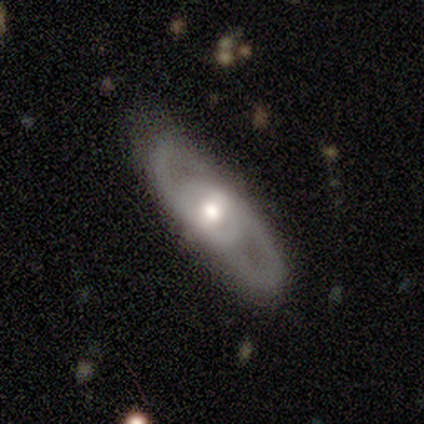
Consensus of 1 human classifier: Smooth or featured? featured or disk (100%)
Edge-on disk? no (100%)
Bar? no (100%)
Spiral arms? yes (100%)
Spiral winding? loose (100%)
Spiral arm count? can't tell (100%)
Bulge size? small (100%)
Merging? none (100%)